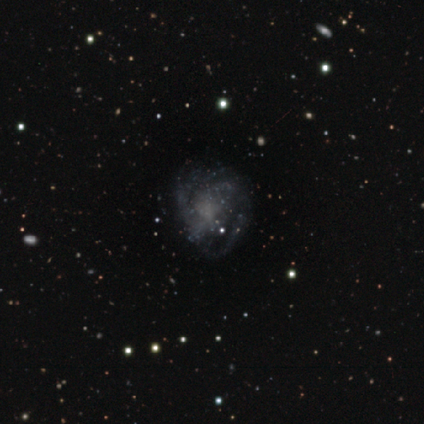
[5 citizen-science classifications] Smooth or featured?
  - featured or disk: 80% *
  - star or artifact: 20%
  - smooth: 0%
Edge-on disk?
  - no: 100% *
  - yes: 0%
Bar?
  - no: 100% *
  - strong: 0%
  - weak: 0%
Spiral arms?
  - yes: 100% *
  - no: 0%
Spiral winding?
  - tight: 75% *
  - medium: 25%
  - loose: 0%
Spiral arm count?
  - 2: 50% * (tied)
  - can't tell: 50% * (tied)
  - 1: 0%
  - 3: 0%
  - 4: 0%
  - more than 4: 0%
Bulge size?
  - none: 75% *
  - moderate: 25%
  - dominant: 0%
  - large: 0%
  - small: 0%
Merging?
  - none: 75% *
  - major disturbance: 25%
  - minor disturbance: 0%
  - merger: 0%